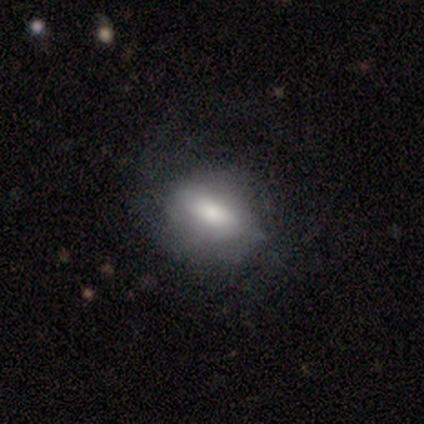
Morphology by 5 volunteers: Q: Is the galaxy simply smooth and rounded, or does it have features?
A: smooth — 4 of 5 (80%).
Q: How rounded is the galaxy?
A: in between — 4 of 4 (100%).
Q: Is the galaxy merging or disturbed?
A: none — 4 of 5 (80%).